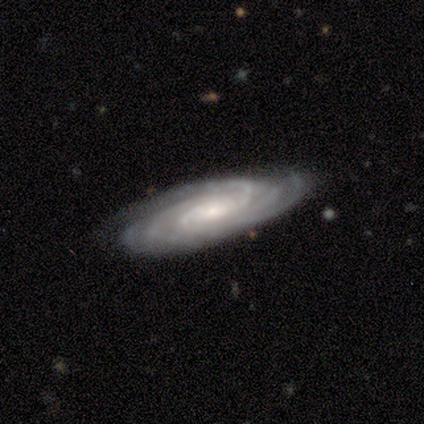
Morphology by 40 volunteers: Smooth or featured: featured or disk — 98% (smooth — 2%)
Edge-on disk: no — 82% (yes — 18%)
Bar: no — 62% (weak — 22%)
Spiral arms: yes — 100%
Spiral winding: tight — 72% (medium — 28%)
Spiral arm count: 4 — 25% (tied with more than 4 — 25%)
Bulge size: small — 59% (moderate — 38%)
Merging: none — 78% (minor disturbance — 18%)